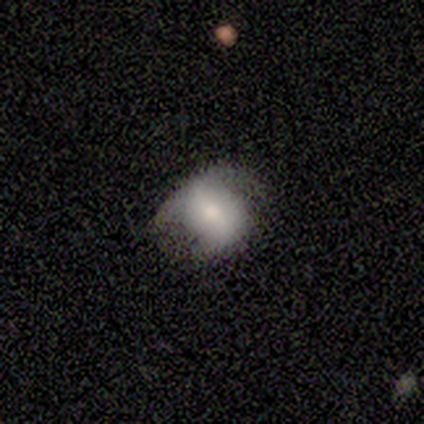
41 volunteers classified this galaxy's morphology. Smooth or featured?
  - smooth: 56% *
  - featured or disk: 39%
  - star or artifact: 5%
How rounded?
  - round: 52% *
  - in between: 48%
  - cigar-shaped: 0%
Merging?
  - minor disturbance: 44% *
  - none: 38%
  - major disturbance: 18%
  - merger: 0%